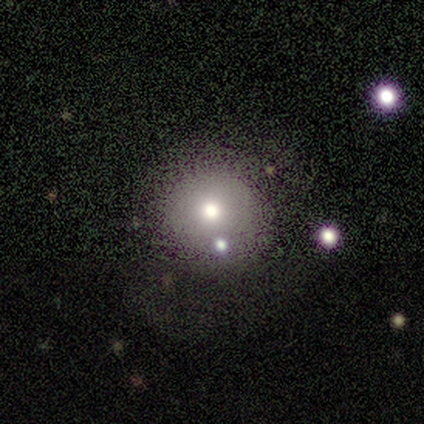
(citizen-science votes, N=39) Overall: smooth (77%). How rounded: round (87%). Merging: none (71%).